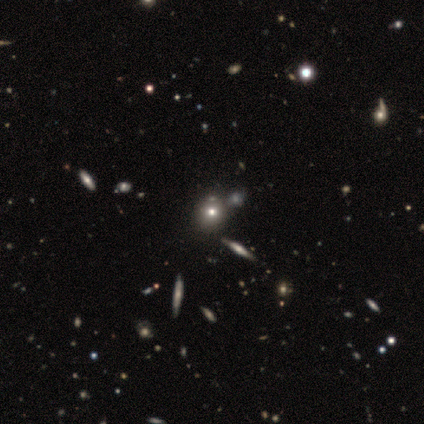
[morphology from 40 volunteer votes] Overall: smooth (60%; star or artifact 28%). How rounded: round (88%). Merging: none (59%).